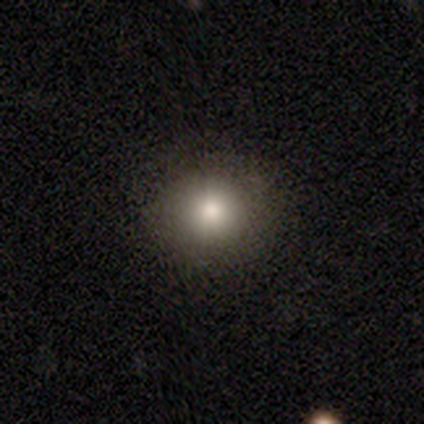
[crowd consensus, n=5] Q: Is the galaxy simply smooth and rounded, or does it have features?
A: smooth — 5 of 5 (100%).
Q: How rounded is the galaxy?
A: round — 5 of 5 (100%).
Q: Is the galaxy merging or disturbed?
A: none — 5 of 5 (100%).